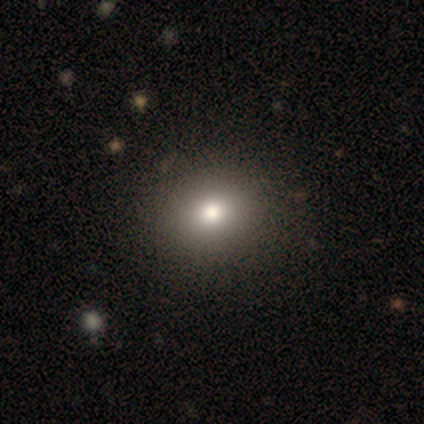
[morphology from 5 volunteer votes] A smooth galaxy with no disk features (40%, tied with featured or disk) that is round (100%).

Vote fractions:
- Smooth or featured? smooth: 40% (tied) / featured or disk: 40% (tied) / star or artifact: 20%
- How rounded? round: 100% / in between: 0% / cigar-shaped: 0%
- Merging? none: 100% / minor disturbance: 0% / major disturbance: 0% / merger: 0%